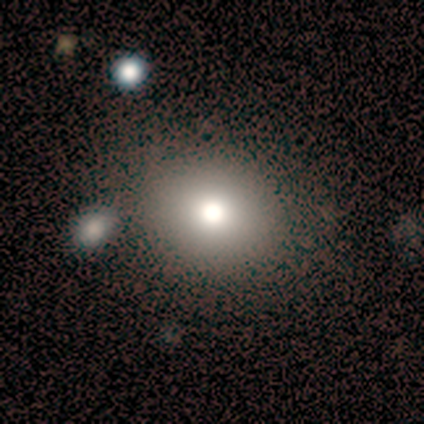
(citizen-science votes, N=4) This is possibly a smooth galaxy (50%, tied with star or artifact). How rounded: clearly round (100%). Merging: possibly none (50%, tied with merger).